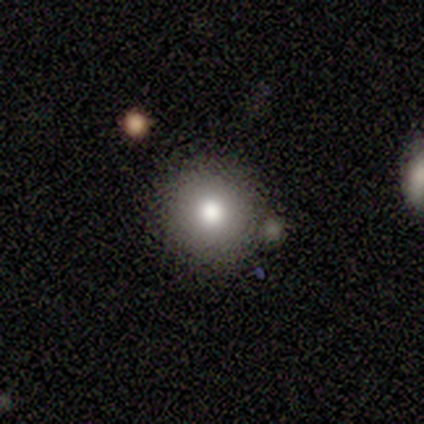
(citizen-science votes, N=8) Smooth or featured? 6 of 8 (75%) said smooth. How rounded? 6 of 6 (100%) said round. Merging? 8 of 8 (100%) said none.